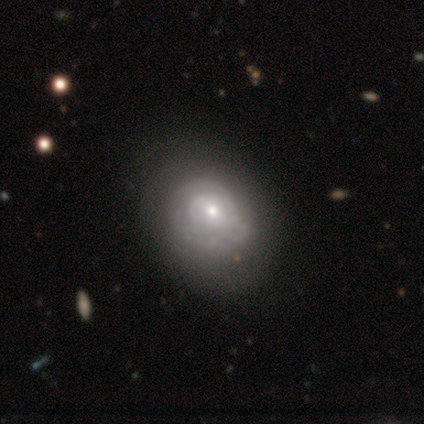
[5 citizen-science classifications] Smooth or featured? 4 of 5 (80%) said featured or disk. Edge-on disk? 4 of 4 (100%) said no. Bar? 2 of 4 (50%, tied with no) said weak. Spiral arms? 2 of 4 (50%, tied with no) said yes. Spiral winding? 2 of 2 (100%) said medium. Spiral arm count? 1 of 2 (50%, tied with can't tell) said 2. Bulge size? 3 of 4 (75%) said moderate. Merging? 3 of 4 (75%) said none.